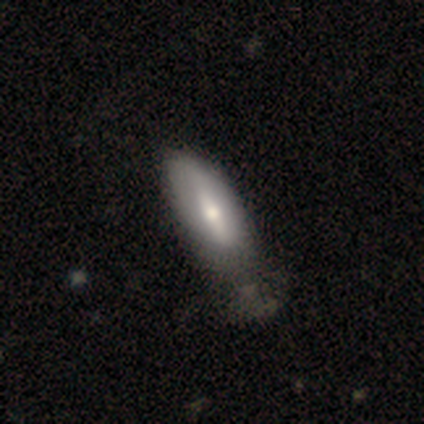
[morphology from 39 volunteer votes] Q: Smooth or featured?
A: smooth (51%); runner-up: featured or disk (49%)
Q: How rounded?
A: in between (85%); runner-up: round (10%)
Q: Merging?
A: none (28%); runner-up: minor disturbance (23%)